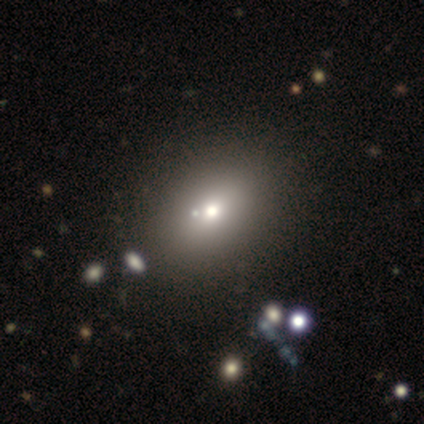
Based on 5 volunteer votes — This appears to be a smooth galaxy with no disk features (60%) that is in between round and cigar-shaped (100%). Merging: none (80%).